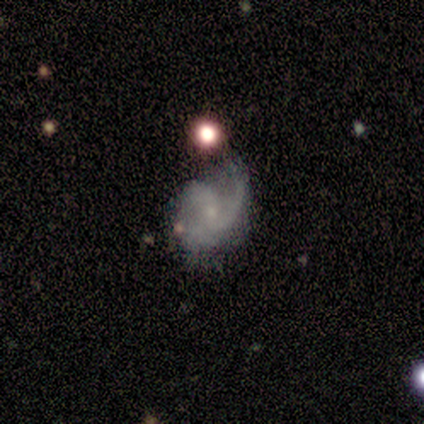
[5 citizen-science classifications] featured or disk 100%, smooth 0%, star or artifact 0%. Down the decision tree: edge-on disk — no (100%); bar — no (60%); spiral arms — yes (100%); spiral arm count — 2 (60%); spiral winding — tight (60%); bulge size — small (60%); merging — minor disturbance (60%).